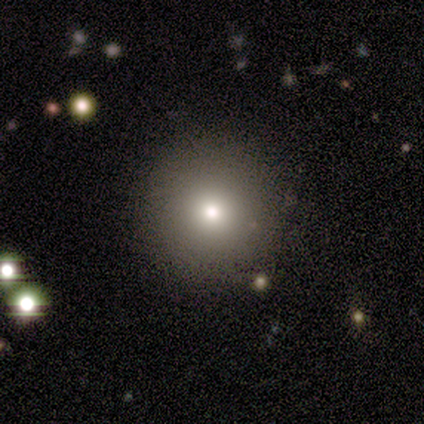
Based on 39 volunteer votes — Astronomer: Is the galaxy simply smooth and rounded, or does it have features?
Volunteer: smooth — 64%.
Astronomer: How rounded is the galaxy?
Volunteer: round — 100%.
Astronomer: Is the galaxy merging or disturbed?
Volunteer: none — 79%.